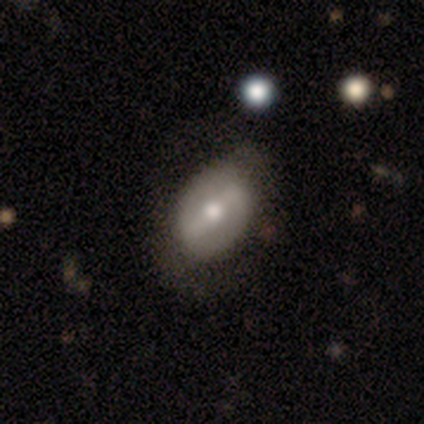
Smooth or featured? smooth (60%)
How rounded? in between (100%)
Merging? none (75%)